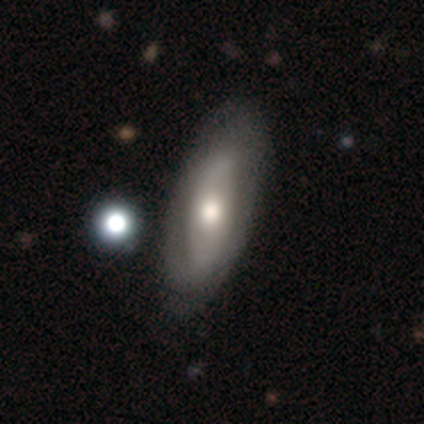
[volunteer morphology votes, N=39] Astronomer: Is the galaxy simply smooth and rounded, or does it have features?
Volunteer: featured or disk — 59%.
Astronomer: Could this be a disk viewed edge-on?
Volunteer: no — 65%.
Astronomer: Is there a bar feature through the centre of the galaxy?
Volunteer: no — 67%.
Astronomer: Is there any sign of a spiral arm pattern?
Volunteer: no — 53% (runner-up: yes, 47%).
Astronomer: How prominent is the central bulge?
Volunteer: moderate — 67%.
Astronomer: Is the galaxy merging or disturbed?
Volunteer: none — 72%.